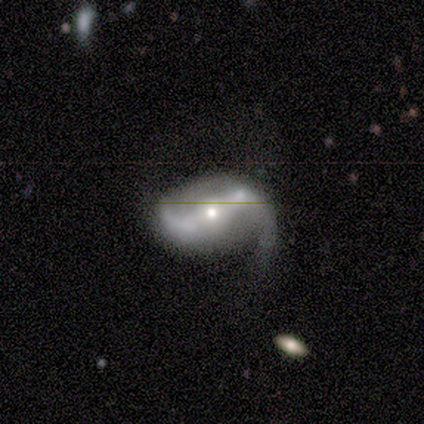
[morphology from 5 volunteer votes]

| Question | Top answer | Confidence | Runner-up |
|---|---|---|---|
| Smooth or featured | featured or disk | 100% | — |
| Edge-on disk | no | 80% | yes (20%) |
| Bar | strong | 75% | no (25%) |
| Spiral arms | yes | 100% | — |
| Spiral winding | loose | 100% | — |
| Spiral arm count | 2 | 75% | 1 (25%) |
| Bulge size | moderate | 50% | tied: small (50%) |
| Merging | none | 40% | minor disturbance (20%) |